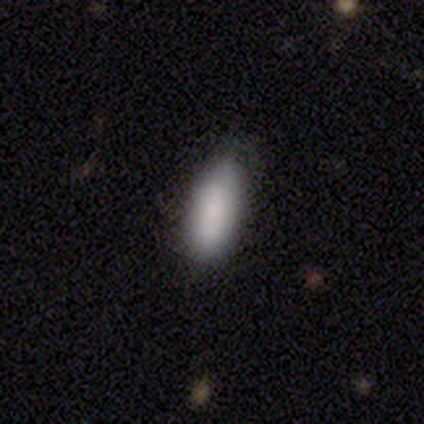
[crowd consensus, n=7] A smooth galaxy with no disk features (71%) that is in between round and cigar-shaped (80%).

Vote fractions:
- Smooth or featured? smooth: 71% / featured or disk: 14% / star or artifact: 14%
- How rounded? in between: 80% / cigar-shaped: 20% / round: 0%
- Merging? minor disturbance: 67% / none: 17% / major disturbance: 17% / merger: 0%